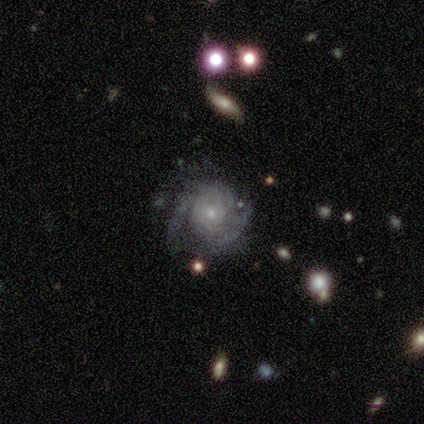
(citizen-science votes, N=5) Morphology: type=featured or disk (60%); edge-on=no (100%); bar=no (100%); spiral arms=yes (100%); winding=tight (100%); arm count=1 (33%, tied with more than 4 and can't tell); bulge=small (100%); merging=none (100%).